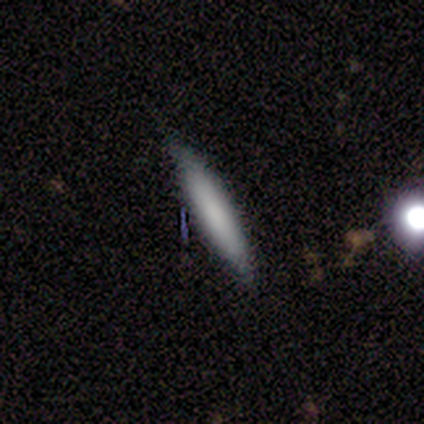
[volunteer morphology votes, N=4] Smooth or featured? 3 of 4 (75%) said smooth. How rounded? 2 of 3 (67%) said cigar-shaped. Merging? 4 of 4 (100%) said none.